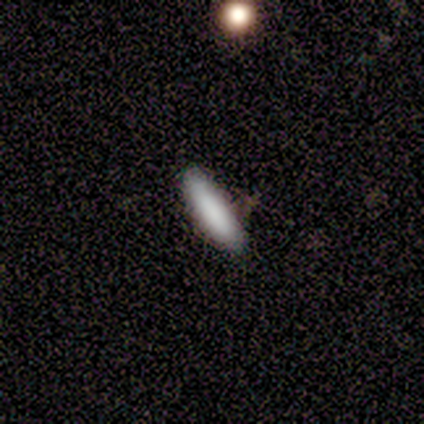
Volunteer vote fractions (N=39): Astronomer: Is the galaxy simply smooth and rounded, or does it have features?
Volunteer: smooth — 85%.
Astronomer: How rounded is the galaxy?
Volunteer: cigar-shaped — 79%.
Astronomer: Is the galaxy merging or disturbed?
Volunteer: none — 82%.